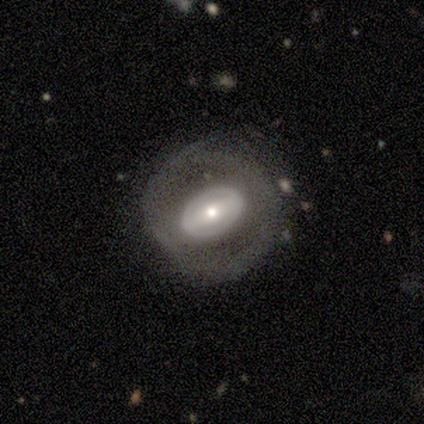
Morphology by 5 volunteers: Q: Smooth or featured?
A: featured or disk (100%)
Q: Edge-on disk?
A: no (80%); runner-up: yes (20%)
Q: Bar?
A: strong (75%); runner-up: no (25%)
Q: Spiral arms?
A: yes (75%); runner-up: no (25%)
Q: Spiral winding?
A: tight (33%); tied with: medium (33%); loose (33%)
Q: Spiral arm count?
A: 2 (67%); runner-up: can't tell (33%)
Q: Bulge size?
A: small (75%); runner-up: moderate (25%)
Q: Merging?
A: none (60%); runner-up: minor disturbance (40%)